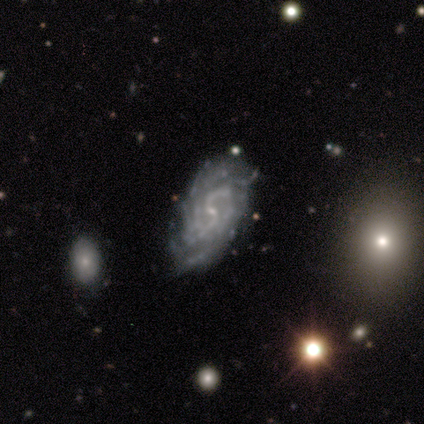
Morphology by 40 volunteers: Volunteers were most divided on "spiral winding" (3-way tie): tight: 33%, medium: 33%, loose: 33%. More confident: edge-on disk — no (100%); spiral arms — yes (100%); bulge size — small (92%); smooth or featured — featured or disk (90%); merging — none (87%); bar — weak (69%); spiral arm count — 2 (50%).